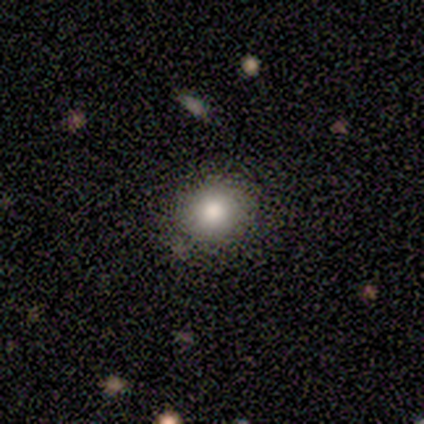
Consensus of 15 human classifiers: smooth 67%, featured or disk 20%, star or artifact 13%. Down the decision tree: how rounded — round (90%); merging — none (92%).